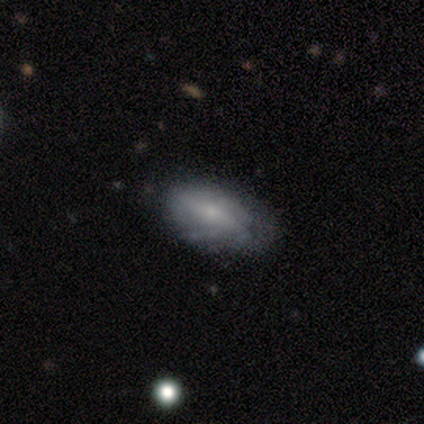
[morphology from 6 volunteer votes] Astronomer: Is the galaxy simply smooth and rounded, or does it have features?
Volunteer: smooth — 50%, tied with featured or disk at 50%.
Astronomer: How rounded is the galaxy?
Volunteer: in between — 100%.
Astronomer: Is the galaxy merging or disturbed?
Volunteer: none — 67%.